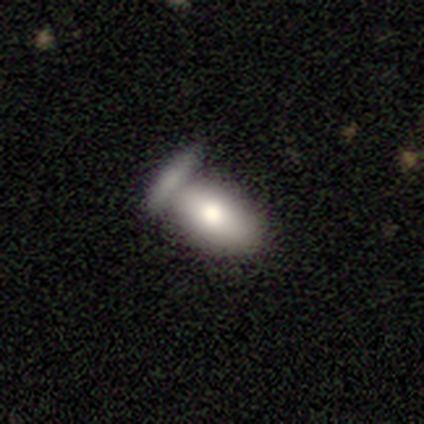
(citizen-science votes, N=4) Morphology: type=smooth (75%); roundness=in between (100%); merging=none (50%, tied with merger).